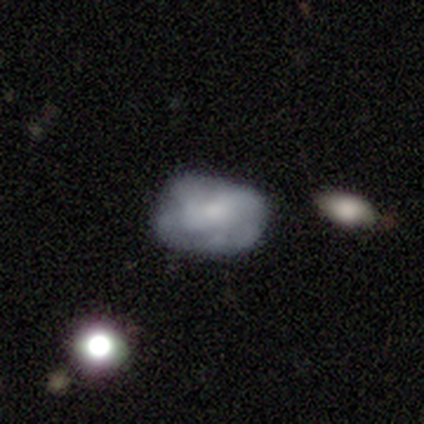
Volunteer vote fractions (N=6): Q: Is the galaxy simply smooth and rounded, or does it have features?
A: smooth — 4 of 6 (67%).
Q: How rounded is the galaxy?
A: in between — 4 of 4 (100%).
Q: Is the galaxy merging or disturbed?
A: none — 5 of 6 (83%).